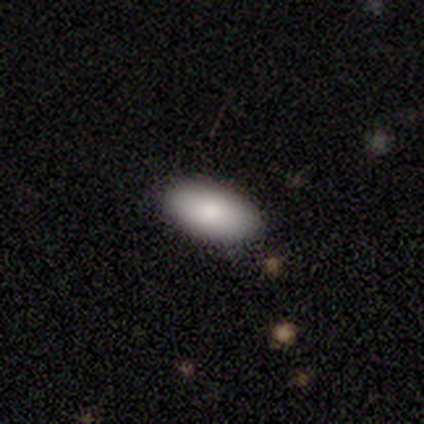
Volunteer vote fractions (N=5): Smooth or featured? smooth (40%, tied with featured or disk)
How rounded? in between (100%)
Merging? none (50%, tied with minor disturbance)